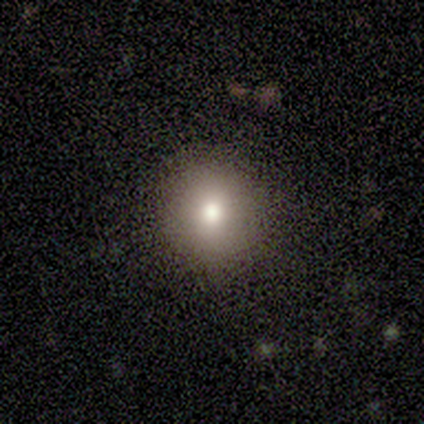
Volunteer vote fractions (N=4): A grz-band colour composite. It shows a star or artifact, not a galaxy (75%).